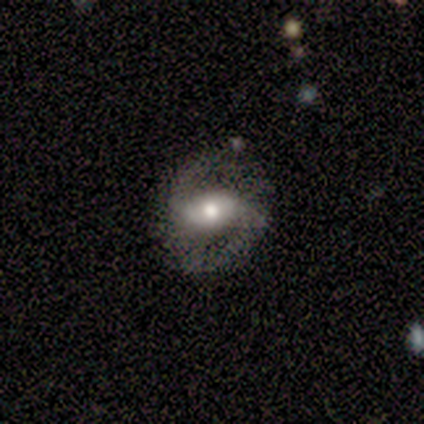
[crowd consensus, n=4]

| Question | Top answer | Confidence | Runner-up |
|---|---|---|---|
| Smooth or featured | featured or disk | 100% | — |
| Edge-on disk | no | 100% | — |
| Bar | strong | 50% | weak (25%) |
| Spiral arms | yes | 100% | — |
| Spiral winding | medium | 50% | tight (25%) |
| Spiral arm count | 2 | 75% | can't tell (25%) |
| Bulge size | moderate | 75% | large (25%) |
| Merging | none | 75% | major disturbance (25%) |